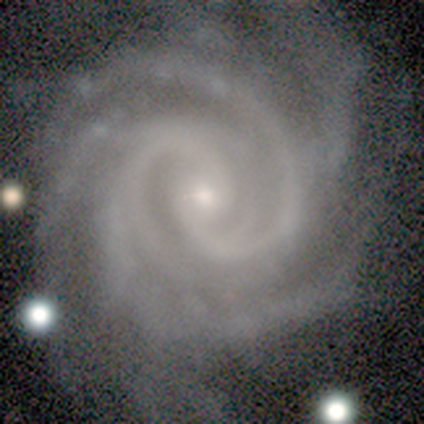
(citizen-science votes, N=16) Volunteers were most divided on "spiral arm count": 4: 47%, more than 4: 27%, 2: 13%, 3: 7%, can't tell: 7%, 1: 0%. More confident: edge-on disk — no (100%); spiral arms — yes (100%); smooth or featured — featured or disk (94%); bulge size — small (87%); spiral winding — tight (73%); merging — none (73%); bar — no (67%).